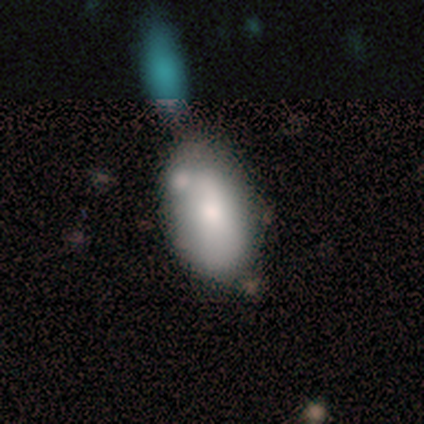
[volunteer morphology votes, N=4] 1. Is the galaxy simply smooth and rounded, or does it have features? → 75% smooth, 25% star or artifact, 0% featured or disk.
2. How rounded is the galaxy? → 100% in between, 0% round, 0% cigar-shaped.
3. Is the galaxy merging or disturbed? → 33% none (tied), 33% minor disturbance (tied), 33% merger (tied), 0% major disturbance.